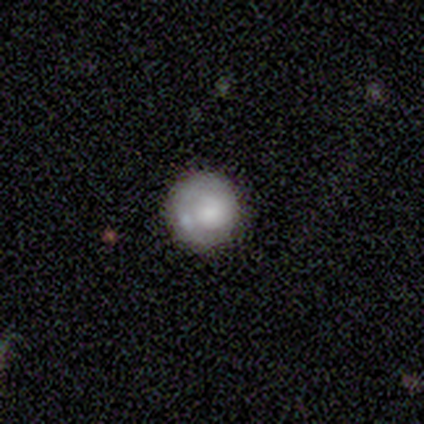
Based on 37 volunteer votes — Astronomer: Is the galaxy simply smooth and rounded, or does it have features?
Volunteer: smooth — 65%.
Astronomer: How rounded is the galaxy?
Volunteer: round — 96%.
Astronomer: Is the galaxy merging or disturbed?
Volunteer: none — 75%.